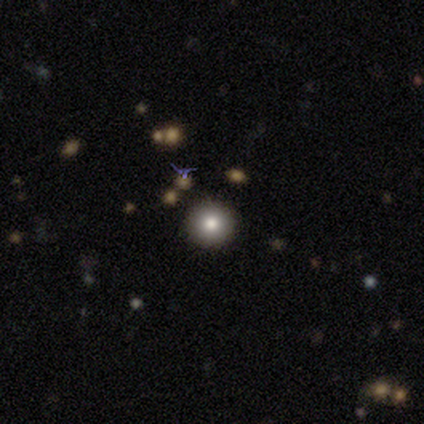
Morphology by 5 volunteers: smooth-or-featured: smooth: 60% | star or artifact: 40% | featured or disk: 0%
  how-rounded: round: 100% | in between: 0% | cigar-shaped: 0%
  merging: none: 67% | merger: 33% | minor disturbance: 0% | major disturbance: 0%